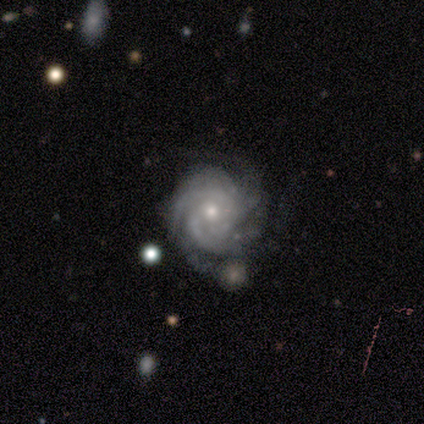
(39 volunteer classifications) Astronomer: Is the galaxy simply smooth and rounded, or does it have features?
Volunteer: featured or disk — 95%.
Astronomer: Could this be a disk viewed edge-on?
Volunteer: no — 97%.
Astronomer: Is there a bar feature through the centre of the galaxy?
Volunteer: no — 81%.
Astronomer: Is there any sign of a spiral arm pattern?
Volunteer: yes — 100%.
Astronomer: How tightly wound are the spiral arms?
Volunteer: tight — 75%.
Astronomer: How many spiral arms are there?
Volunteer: can't tell — 36% (runner-up: 3, 28%).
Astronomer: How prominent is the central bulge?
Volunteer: small — 58% (runner-up: moderate, 42%).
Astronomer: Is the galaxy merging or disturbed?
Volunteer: none — 37% (runner-up: minor disturbance, 18%).